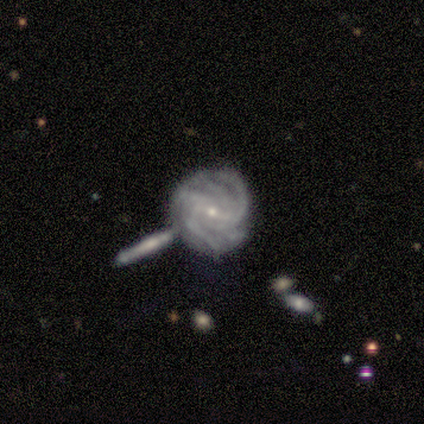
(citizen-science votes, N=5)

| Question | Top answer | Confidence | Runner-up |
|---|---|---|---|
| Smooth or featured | featured or disk | 100% | — |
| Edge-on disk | no | 100% | — |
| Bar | strong | 40% | tied: no (40%) |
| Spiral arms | yes | 100% | — |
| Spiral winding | tight | 60% | medium (40%) |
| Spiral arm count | can't tell | 60% | 3 (20%) |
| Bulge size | small | 100% | — |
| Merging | none | 40% | tied: minor disturbance (40%) |